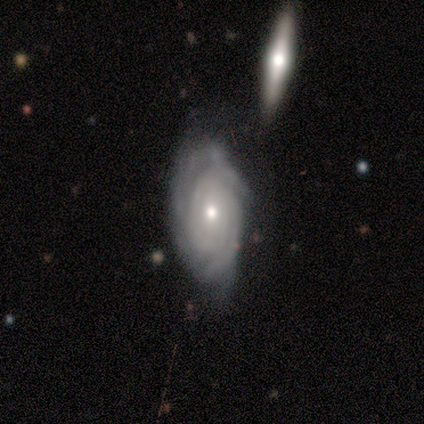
Smooth or featured? 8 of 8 (100%) said featured or disk. Edge-on disk? 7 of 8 (88%) said no. Bar? 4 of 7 (57%) said no. Spiral arms? 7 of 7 (100%) said yes. Spiral winding? 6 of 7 (86%) said tight. Spiral arm count? 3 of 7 (43%) said 3. Bulge size? 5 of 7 (71%) said small. Merging? 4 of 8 (50%, tied with minor disturbance) said none.